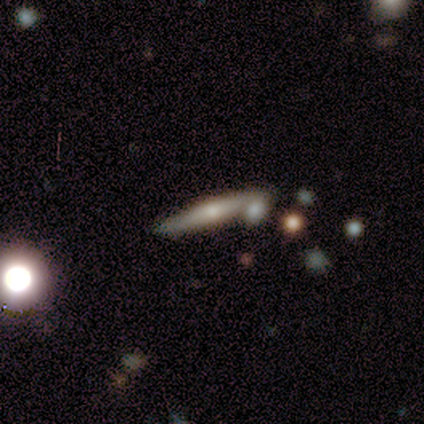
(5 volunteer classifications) featured or disk 60%, smooth 40%, star or artifact 0%. Down the decision tree: edge-on disk — yes (100%); edge-on bulge — rounded (100%); merging — none (100%).